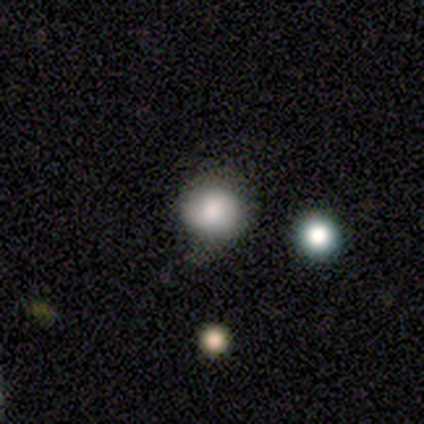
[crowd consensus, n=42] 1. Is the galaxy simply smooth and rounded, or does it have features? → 79% smooth, 14% star or artifact, 7% featured or disk.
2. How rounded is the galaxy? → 85% round, 15% in between, 0% cigar-shaped.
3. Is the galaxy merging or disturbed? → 67% none, 25% minor disturbance, 6% major disturbance, 3% merger.